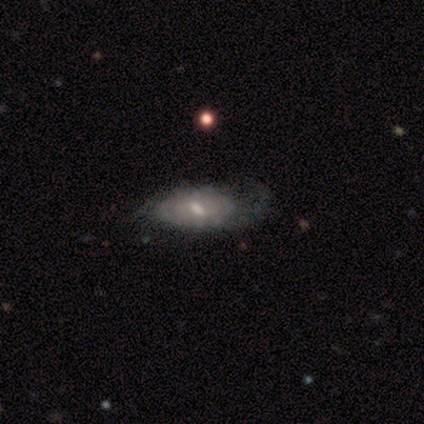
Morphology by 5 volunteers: A featured or disk galaxy (100%) with a weak bar (60%), tight (33%, tied with medium and loose) spiral arms (60%) and a moderate central bulge (40%, tied with small). Merging: minor disturbance (60%).